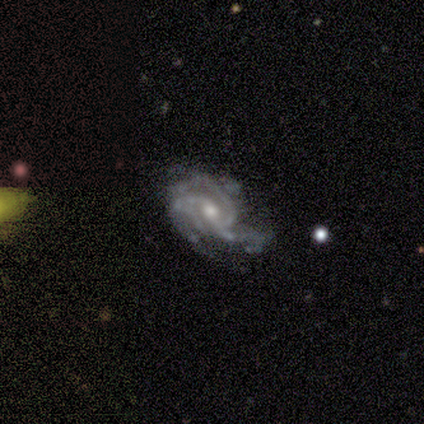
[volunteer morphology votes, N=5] featured or disk 100%, smooth 0%, star or artifact 0%. Down the decision tree: edge-on disk — no (100%); bar — no (60%); spiral arms — yes (100%); spiral arm count — 3 (60%); spiral winding — medium (60%); bulge size — moderate (100%); merging — minor disturbance (80%).